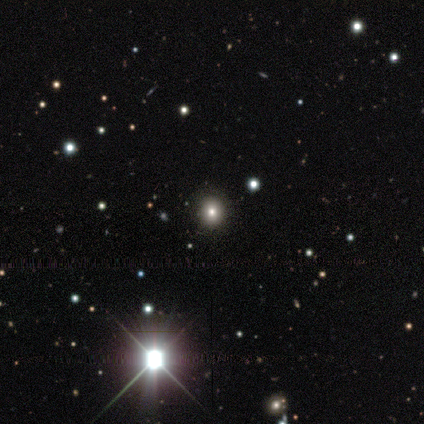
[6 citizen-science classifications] smooth-or-featured: smooth: 50% (tied) | star or artifact: 50% (tied) | featured or disk: 0%
  how-rounded: round: 100% | in between: 0% | cigar-shaped: 0%
  merging: none: 67% | minor disturbance: 33% | major disturbance: 0% | merger: 0%